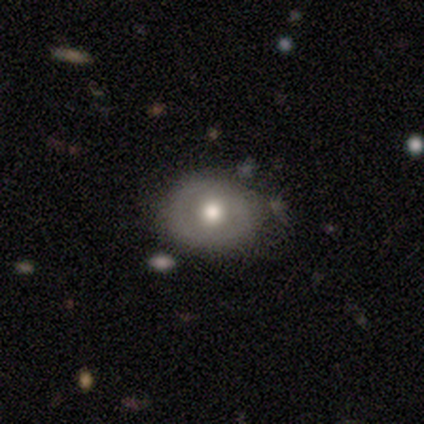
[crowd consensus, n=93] A smooth galaxy with no disk features (57%) that is round (70%).

Vote fractions:
- Smooth or featured? smooth: 57% / featured or disk: 33% / star or artifact: 10%
- How rounded? round: 70% / in between: 28% / cigar-shaped: 2%
- Merging? none: 77% / minor disturbance: 19% / merger: 4% / major disturbance: 0%